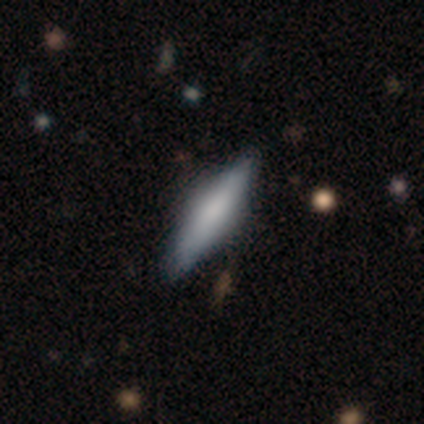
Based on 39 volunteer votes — This appears to be a smooth galaxy with no disk features (51%) that is cigar-shaped (55%). Merging: none (74%).